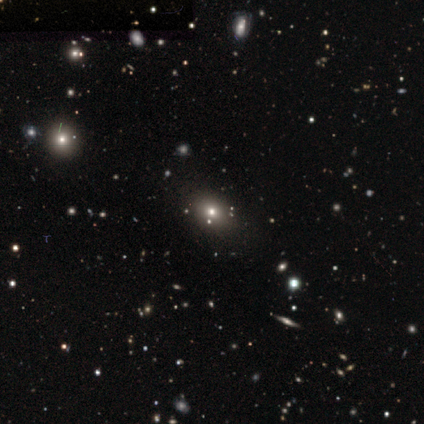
Q: Smooth or featured?
A: smooth (80%); runner-up: star or artifact (20%)
Q: How rounded?
A: round (50%); tied with: in between (50%)
Q: Merging?
A: none (75%); runner-up: minor disturbance (25%)